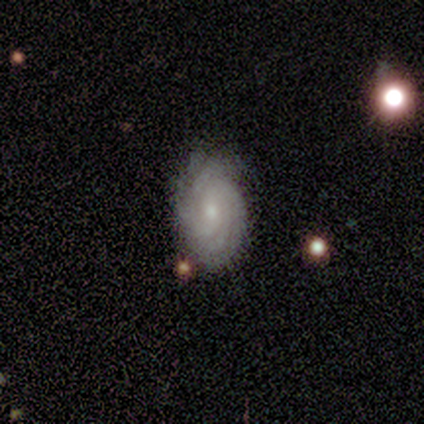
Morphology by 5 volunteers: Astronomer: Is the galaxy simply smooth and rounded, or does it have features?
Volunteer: featured or disk — 80%.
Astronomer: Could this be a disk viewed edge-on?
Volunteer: no — 100%.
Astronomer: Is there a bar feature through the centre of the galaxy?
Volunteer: no — 100%.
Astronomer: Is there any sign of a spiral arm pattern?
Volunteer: yes — 100%.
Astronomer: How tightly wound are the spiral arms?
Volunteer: tight — 100%.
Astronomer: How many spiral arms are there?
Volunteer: more than 4 — 50%.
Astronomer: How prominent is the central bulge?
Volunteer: moderate — 50%, tied with small at 50%.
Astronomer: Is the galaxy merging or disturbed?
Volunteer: none — 100%.